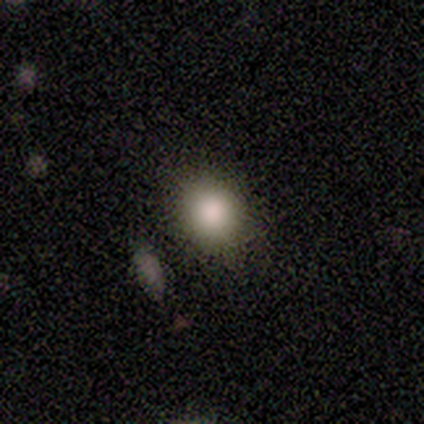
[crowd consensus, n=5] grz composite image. It shows a smooth galaxy with no disk features (100%) that is round (80%). Merging: none (80%).